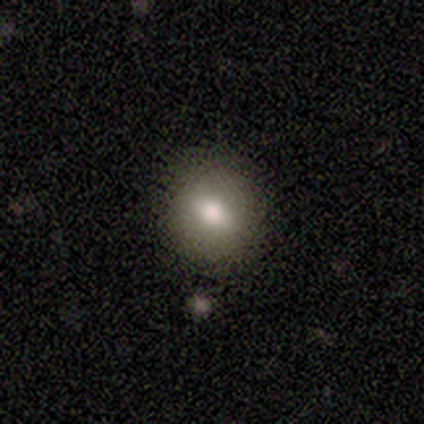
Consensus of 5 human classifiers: This appears to be a smooth galaxy with no disk features (100%) that is round (60%). Merging: none (80%).